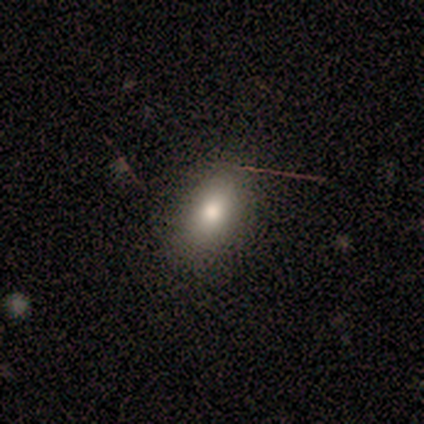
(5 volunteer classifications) Smooth or featured?
  - smooth: 100% *
  - featured or disk: 0%
  - star or artifact: 0%
How rounded?
  - in between: 80% *
  - round: 20%
  - cigar-shaped: 0%
Merging?
  - none: 80% *
  - major disturbance: 20%
  - minor disturbance: 0%
  - merger: 0%